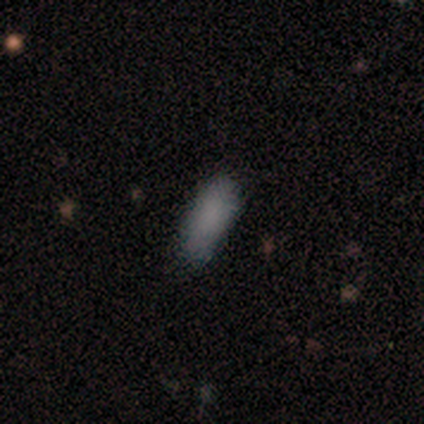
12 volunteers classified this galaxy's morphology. Q: Smooth or featured?
A: smooth (83%); runner-up: featured or disk (8%)
Q: How rounded?
A: in between (80%); runner-up: cigar-shaped (20%)
Q: Merging?
A: none (73%); runner-up: minor disturbance (27%)